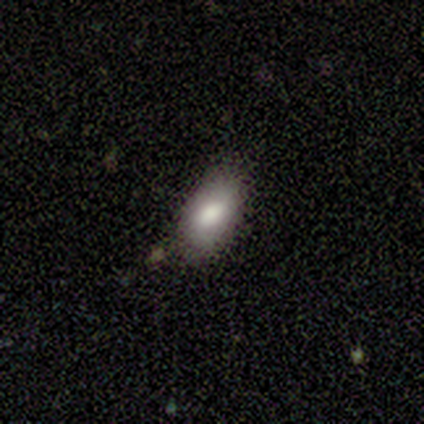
smooth-or-featured: smooth: 100% | featured or disk: 0% | star or artifact: 0%
  how-rounded: in between: 100% | round: 0% | cigar-shaped: 0%
  merging: none: 100% | minor disturbance: 0% | major disturbance: 0% | merger: 0%